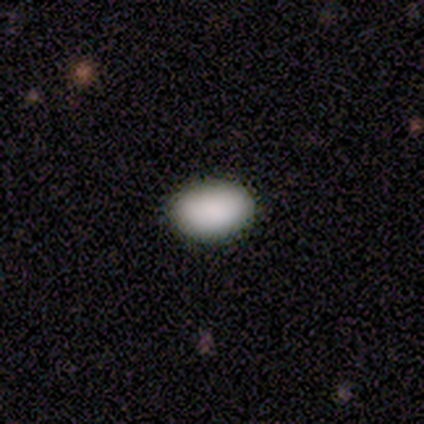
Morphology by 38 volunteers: A smooth galaxy with no disk features (89%) that is in between round and cigar-shaped (76%). Merging: none (91%).